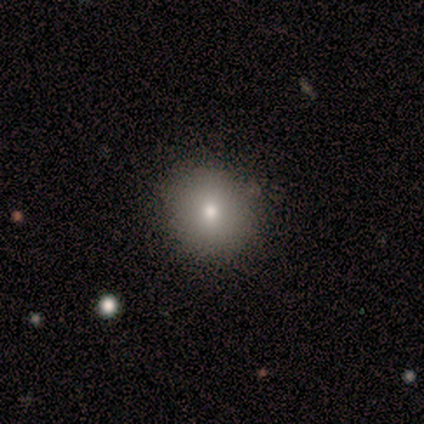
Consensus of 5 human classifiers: Smooth or featured? smooth (100%)
How rounded? round (80%)
Merging? none (100%)